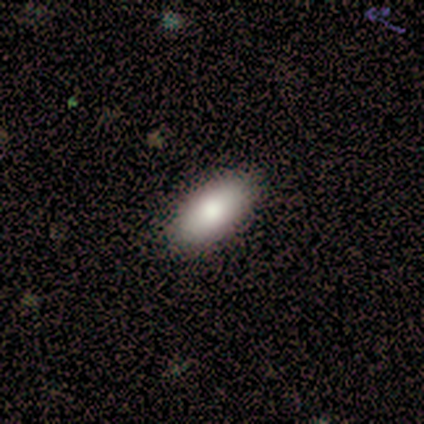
A smooth galaxy with no disk features (100%) that is in between round and cigar-shaped (91%). Merging: none (100%).